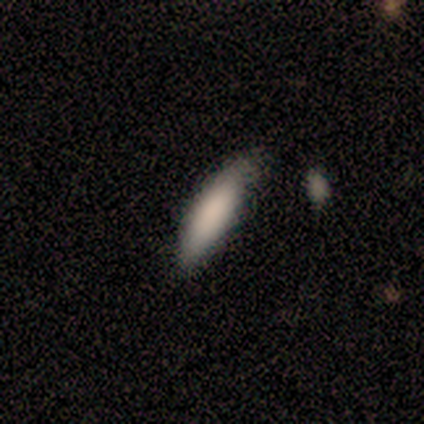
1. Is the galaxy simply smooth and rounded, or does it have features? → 100% smooth, 0% featured or disk, 0% star or artifact.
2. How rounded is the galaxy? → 80% in between, 20% cigar-shaped, 0% round.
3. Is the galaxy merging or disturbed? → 100% none, 0% minor disturbance, 0% major disturbance, 0% merger.